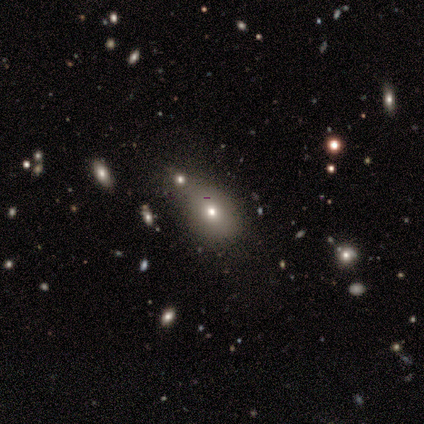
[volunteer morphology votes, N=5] Overall: smooth (80%). How rounded: in between (75%). Merging: minor disturbance (50%; none 25%).